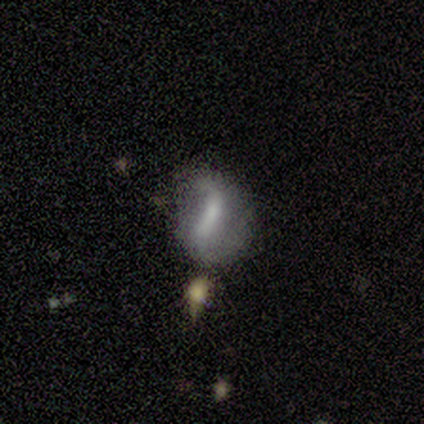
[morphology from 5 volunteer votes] Volunteers were most divided on "smooth or featured": smooth: 60%, featured or disk: 40%, star or artifact: 0%. Remaining: how rounded — in between (100%); merging — merger (40%).